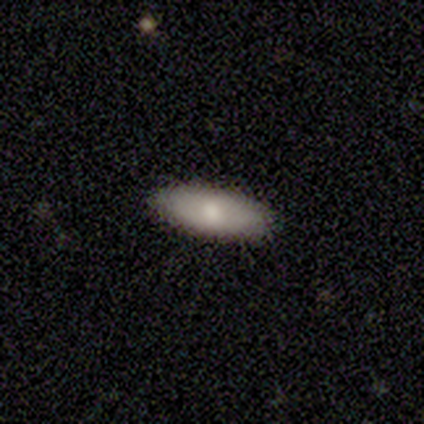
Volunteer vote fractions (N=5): smooth_or_featured: smooth (p=1.00)
how_rounded: in between (p=0.80) [alt: cigar-shaped p=0.20]
merging: none (p=0.60) [alt: minor disturbance p=0.40]